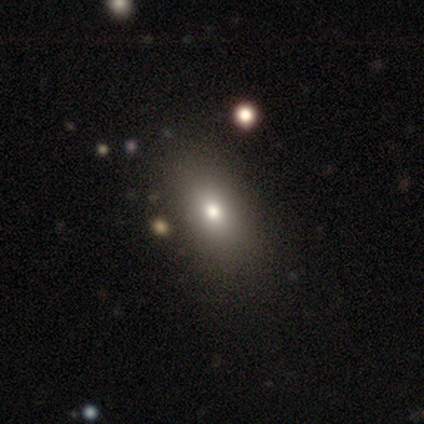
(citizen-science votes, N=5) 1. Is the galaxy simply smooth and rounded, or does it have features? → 80% smooth, 20% featured or disk, 0% star or artifact.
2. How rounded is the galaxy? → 75% in between, 25% round, 0% cigar-shaped.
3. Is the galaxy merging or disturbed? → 80% none, 20% minor disturbance, 0% major disturbance, 0% merger.